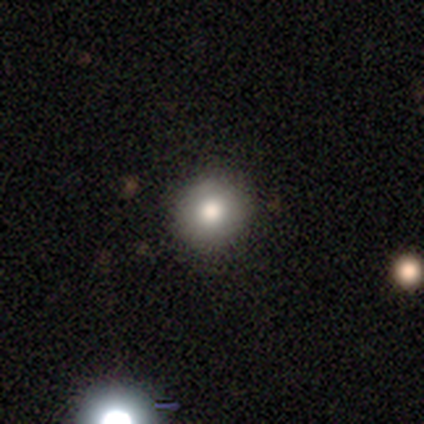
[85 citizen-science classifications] Smooth or featured? 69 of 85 (81%) said smooth. How rounded? 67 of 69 (97%) said round. Merging? 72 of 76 (95%) said none.